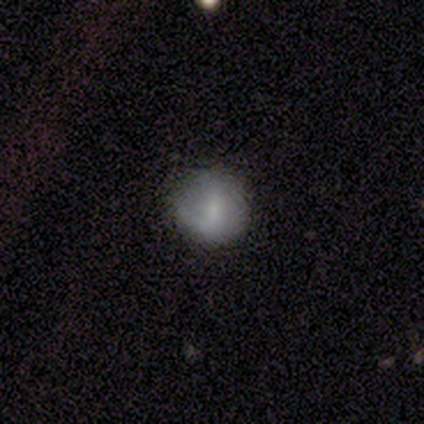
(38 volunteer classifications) Volunteers were most divided on "smooth or featured": smooth: 61%, featured or disk: 29%, star or artifact: 11%. More confident: how rounded — round (96%); merging — none (68%).